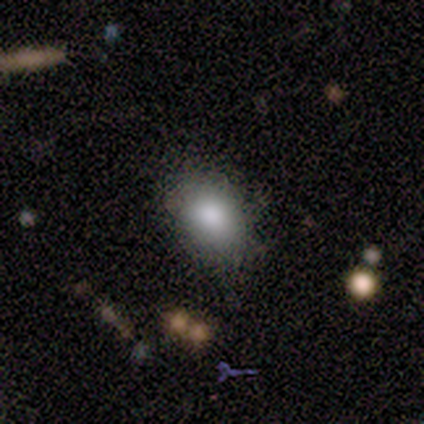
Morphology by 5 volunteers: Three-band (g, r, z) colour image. It shows a smooth galaxy with no disk features (80%) that is in between round and cigar-shaped (100%). Merging: none (100%).